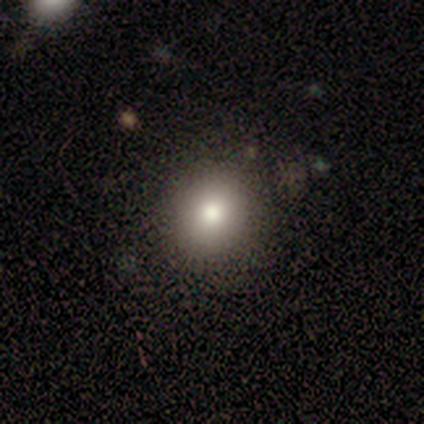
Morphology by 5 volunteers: A smooth galaxy with no disk features (100%) that is round (100%).

Vote fractions:
- Smooth or featured? smooth: 100% / featured or disk: 0% / star or artifact: 0%
- How rounded? round: 100% / in between: 0% / cigar-shaped: 0%
- Merging? none: 100% / minor disturbance: 0% / major disturbance: 0% / merger: 0%